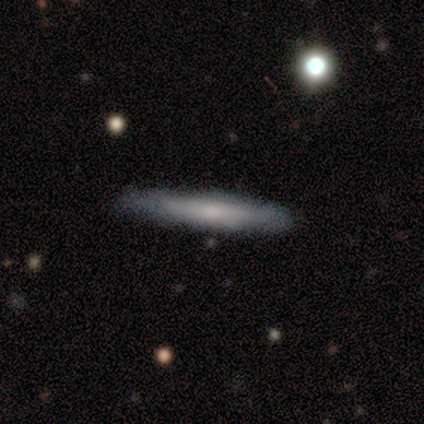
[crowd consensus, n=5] Volunteers were most divided on "smooth or featured": featured or disk: 60%, smooth: 40%, star or artifact: 0%. More confident: edge-on disk — yes (100%); edge-on bulge — rounded (67%); merging — none (60%).